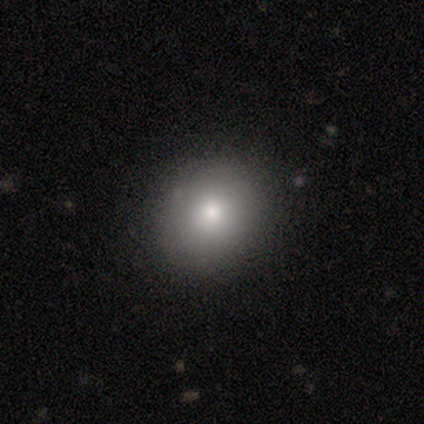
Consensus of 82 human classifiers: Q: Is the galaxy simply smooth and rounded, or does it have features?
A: smooth — 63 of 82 (77%).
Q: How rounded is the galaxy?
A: round — 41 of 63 (65%).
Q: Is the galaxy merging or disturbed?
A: none — 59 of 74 (80%).